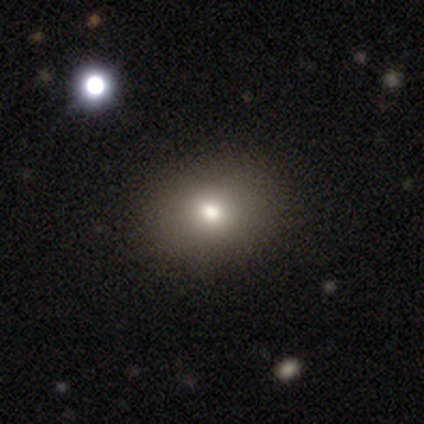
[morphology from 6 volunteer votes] Smooth or featured?
  - smooth: 50% *
  - star or artifact: 33%
  - featured or disk: 17%
How rounded?
  - in between: 100% *
  - round: 0%
  - cigar-shaped: 0%
Merging?
  - none: 100% *
  - minor disturbance: 0%
  - major disturbance: 0%
  - merger: 0%